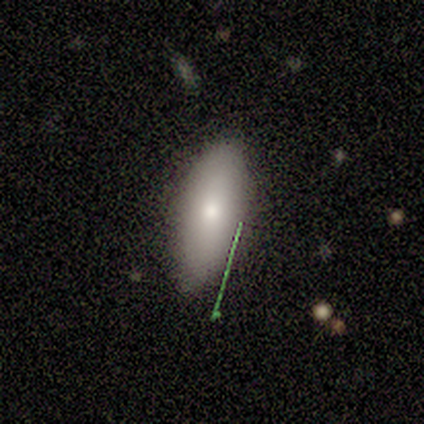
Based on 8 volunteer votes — This is clearly a smooth galaxy (100%). How rounded: clearly in between (88%). Merging: likely none (62%).